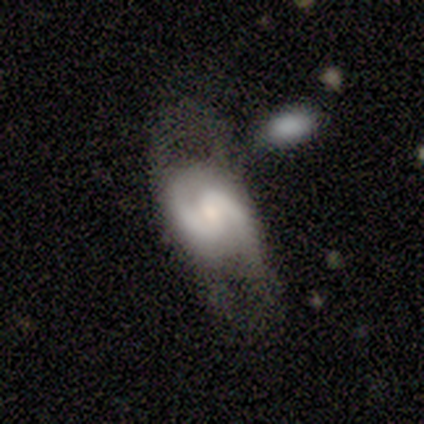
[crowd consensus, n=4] Overall: featured or disk (50%; smooth 25%). Edge-on disk: no (100%). Bar: weak (50%, tied with no). Spiral arms: yes (100%). Spiral arm count: 2 (100%). Spiral winding: loose (100%). Bulge size: small (50%, tied with none). Merging: none (67%; major disturbance 33%).